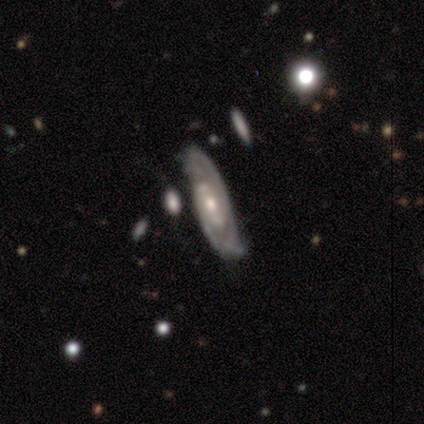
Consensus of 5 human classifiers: This appears to be a featured or disk galaxy (100%) with a weak bar (67%), 2 (100%) tight (50%, tied with medium) spiral arms (67%) and a moderate central bulge (67%). Merging: none (40%, tied with minor disturbance).